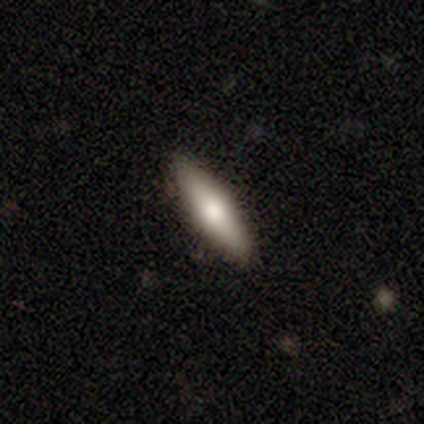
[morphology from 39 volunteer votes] Overall: smooth (62%; featured or disk 28%). How rounded: cigar-shaped (75%). Merging: none (97%).